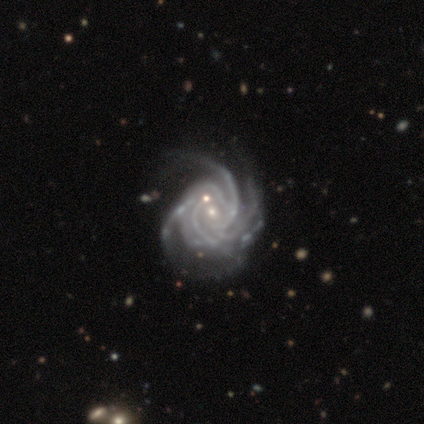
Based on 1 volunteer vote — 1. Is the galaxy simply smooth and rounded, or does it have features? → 100% featured or disk, 0% smooth, 0% star or artifact.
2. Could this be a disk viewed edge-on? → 100% no, 0% yes.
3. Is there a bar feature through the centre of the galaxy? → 100% no, 0% strong, 0% weak.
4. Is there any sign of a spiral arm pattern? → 100% yes, 0% no.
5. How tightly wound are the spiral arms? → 100% tight, 0% medium, 0% loose.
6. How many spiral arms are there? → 100% 3, 0% 1, 0% 2, 0% 4, 0% more than 4, 0% can't tell.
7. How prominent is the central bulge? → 100% small, 0% dominant, 0% large, 0% moderate, 0% none.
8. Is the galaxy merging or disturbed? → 100% minor disturbance, 0% none, 0% major disturbance, 0% merger.